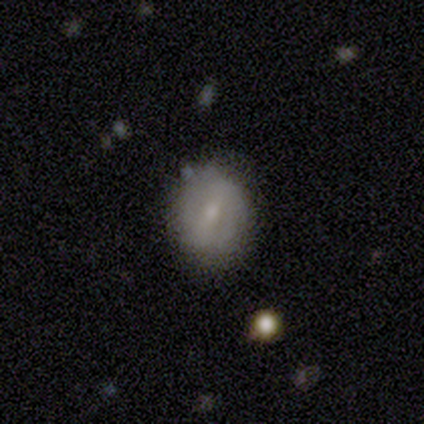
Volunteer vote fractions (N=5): smooth-or-featured: featured or disk: 60% | smooth: 40% | star or artifact: 0%
  disk-edge-on: no: 67% | yes: 33%
    bar: strong: 50% (tied) | weak: 50% (tied) | no: 0%
    has-spiral-arms: no: 100% | yes: 0%
    bulge-size: small: 100% | dominant: 0% | large: 0% | moderate: 0% | none: 0%
  merging: none: 80% | merger: 20% | minor disturbance: 0% | major disturbance: 0%